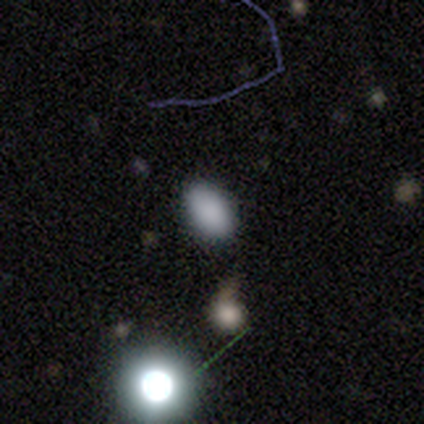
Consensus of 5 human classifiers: Overall: smooth (60%; featured or disk 20%). How rounded: in between (100%). Merging: none (75%).